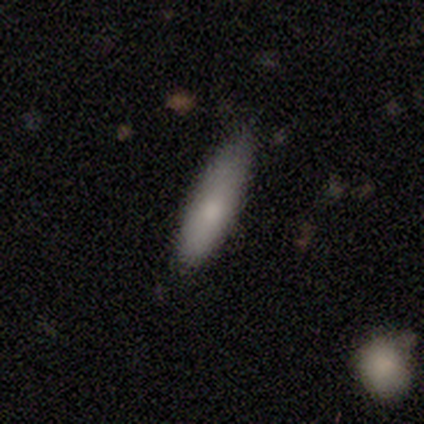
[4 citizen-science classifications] Smooth or featured: smooth — 100%
How rounded: cigar-shaped — 75% (in between — 25%)
Merging: none — 75% (minor disturbance — 25%)